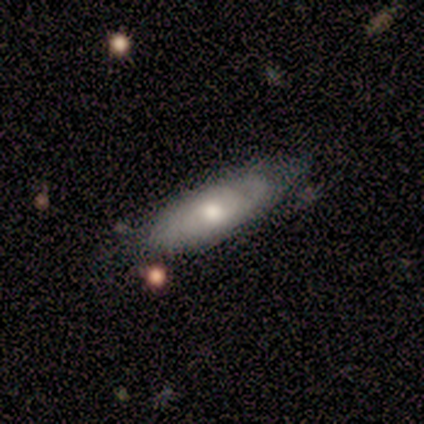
Q: Smooth or featured?
A: smooth (40%); tied with: featured or disk (40%)
Q: How rounded?
A: in between (50%); tied with: cigar-shaped (50%)
Q: Merging?
A: minor disturbance (75%); runner-up: none (25%)